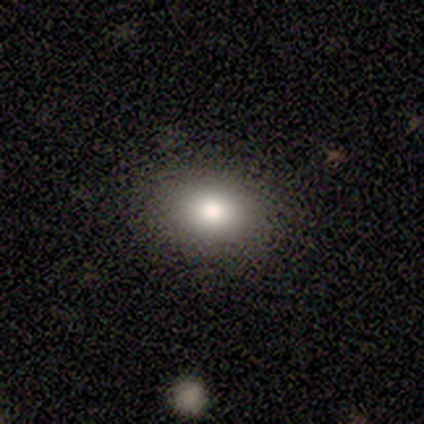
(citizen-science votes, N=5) Smooth or featured?
  - smooth: 60% *
  - star or artifact: 40%
  - featured or disk: 0%
How rounded?
  - in between: 100% *
  - round: 0%
  - cigar-shaped: 0%
Merging?
  - none: 100% *
  - minor disturbance: 0%
  - major disturbance: 0%
  - merger: 0%